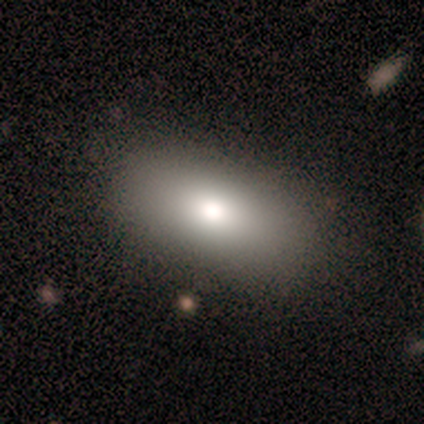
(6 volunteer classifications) Morphology: type=smooth (100%); roundness=in between (83%); merging=none (100%).